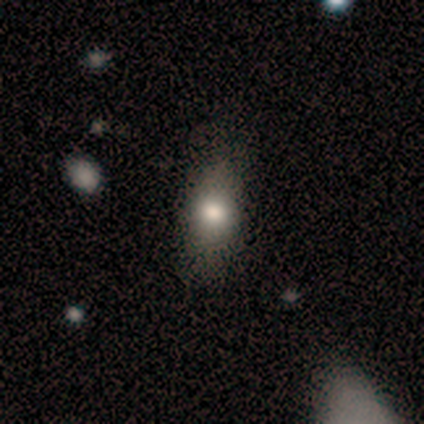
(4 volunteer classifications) A smooth galaxy with no disk features (100%) that is in between round and cigar-shaped (75%). Merging: none (75%).